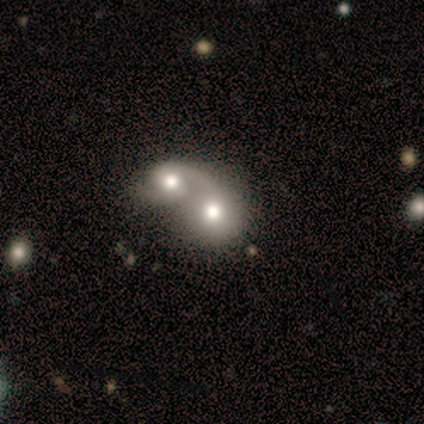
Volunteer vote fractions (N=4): Q: Smooth or featured?
A: featured or disk (75%); runner-up: smooth (25%)
Q: Edge-on disk?
A: no (100%)
Q: Bar?
A: weak (67%); runner-up: no (33%)
Q: Spiral arms?
A: yes (67%); runner-up: no (33%)
Q: Spiral winding?
A: medium (100%)
Q: Spiral arm count?
A: 2 (100%)
Q: Bulge size?
A: moderate (100%)
Q: Merging?
A: merger (75%); runner-up: minor disturbance (25%)